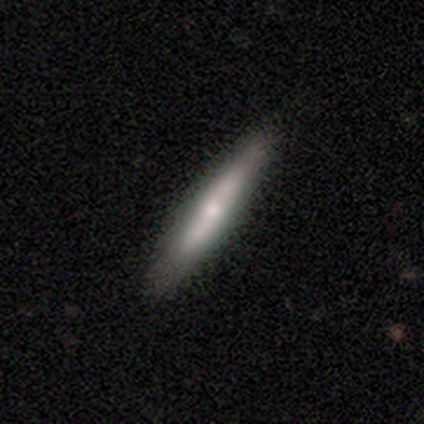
smooth 58%, featured or disk 38%, star or artifact 4%. Down the decision tree: how rounded — cigar-shaped (94%); merging — none (88%).